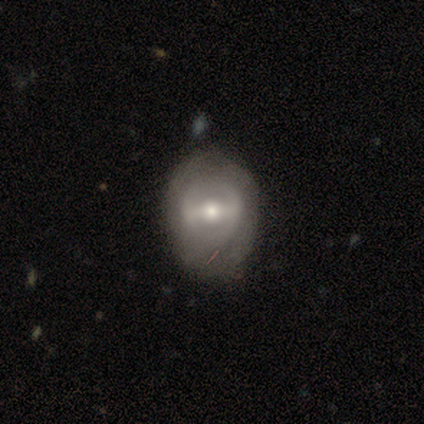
Smooth or featured? featured or disk (100%)
Edge-on disk? no (100%)
Bar? weak (60%)
Spiral arms? no (80%)
Bulge size? moderate (60%)
Merging? minor disturbance (60%)